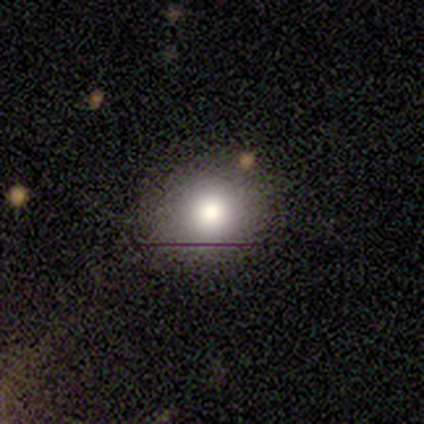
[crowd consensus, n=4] smooth_or_featured: smooth (p=0.75) [alt: featured or disk p=0.25]
how_rounded: round (p=1.00)
merging: none (p=1.00)